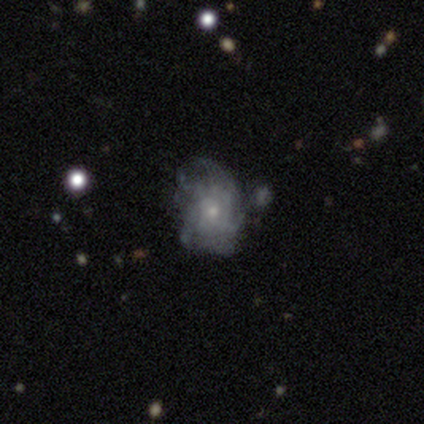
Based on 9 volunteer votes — This appears to be a featured or disk galaxy (56%) with no bar (100%), 4 (50%, tied with can't tell) tight (50%, tied with medium) spiral arms (50%, tied with no) and a small central bulge (75%). Merging: none (50%).